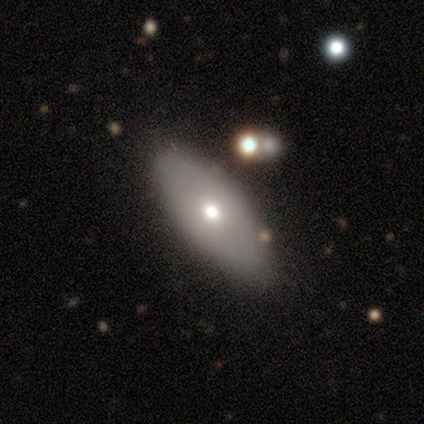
smooth 40% (tied), star or artifact 40% (tied), featured or disk 20%. Down the decision tree: how rounded — in between (100%); merging — none (100%).